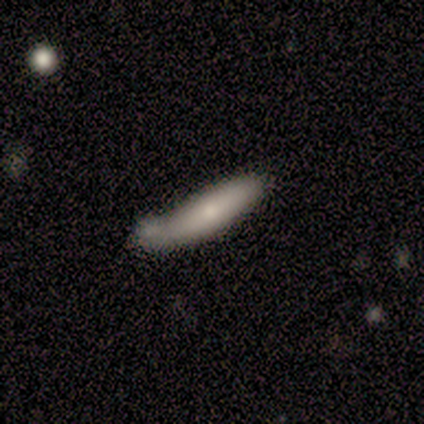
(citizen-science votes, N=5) Q: Smooth or featured?
A: smooth (80%); runner-up: featured or disk (20%)
Q: How rounded?
A: cigar-shaped (75%); runner-up: in between (25%)
Q: Merging?
A: minor disturbance (80%); runner-up: none (20%)